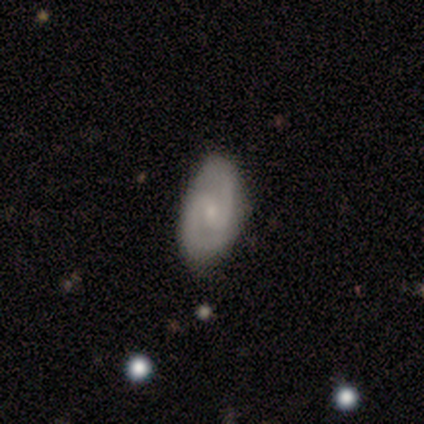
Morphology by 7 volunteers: A featured or disk galaxy (86%) with a weak bar (67%), 2 (100%) medium (50%) spiral arms (67%) and a small central bulge (83%). Merging: none (86%).